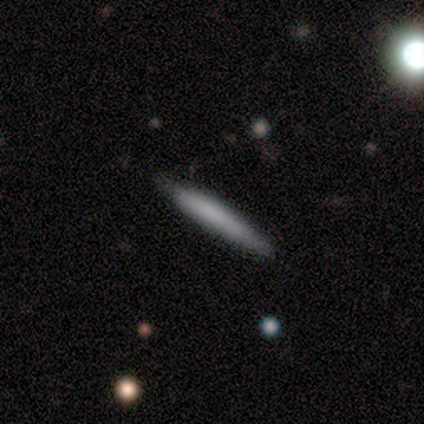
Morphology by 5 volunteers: Q: Smooth or featured?
A: featured or disk (60%); runner-up: smooth (40%)
Q: Edge-on disk?
A: yes (100%)
Q: Edge-on bulge?
A: none (100%)
Q: Merging?
A: none (100%)